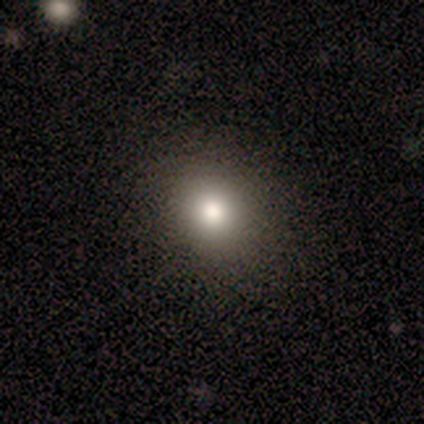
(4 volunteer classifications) smooth-or-featured: smooth: 100% | featured or disk: 0% | star or artifact: 0%
  how-rounded: in between: 75% | round: 25% | cigar-shaped: 0%
  merging: none: 100% | minor disturbance: 0% | major disturbance: 0% | merger: 0%